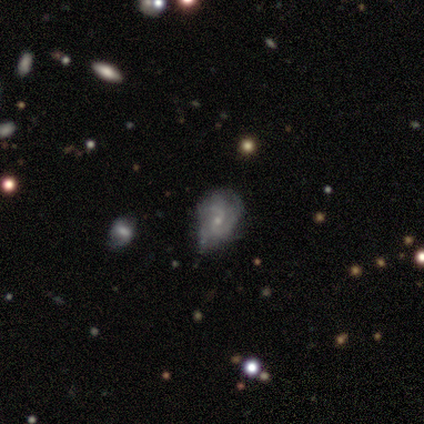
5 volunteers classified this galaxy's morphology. This is clearly a featured or disk galaxy (100%). It is clearly not viewed edge-on (100%). Bar: marginally weak (40%, tied with no). Spiral arm pattern: clearly yes (100%). Spiral arm count: likely 2 (60%). Spiral winding: likely medium (60%). Central bulge: clearly small (80%). Merging: likely minor disturbance (60%).